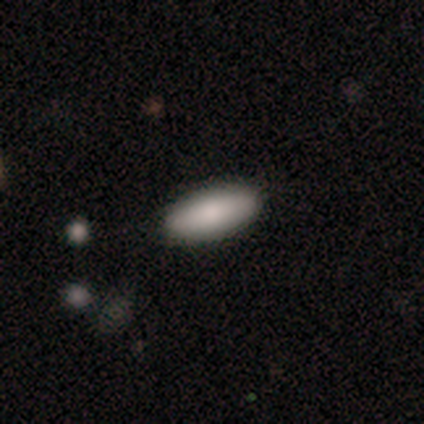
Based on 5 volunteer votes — Smooth or featured? 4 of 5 (80%) said smooth. How rounded? 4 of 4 (100%) said in between. Merging? 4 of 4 (100%) said none.